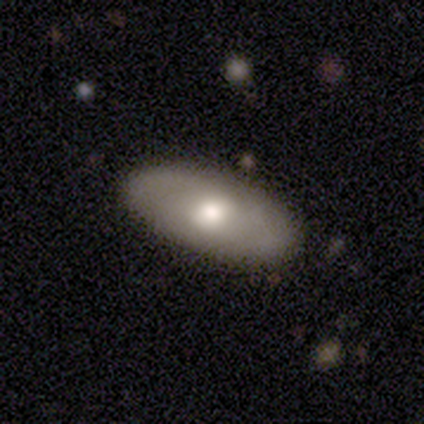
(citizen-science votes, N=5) Q: Smooth or featured?
A: featured or disk (60%); runner-up: smooth (40%)
Q: Edge-on disk?
A: no (100%)
Q: Bar?
A: no (100%)
Q: Spiral arms?
A: no (67%); runner-up: yes (33%)
Q: Bulge size?
A: large (33%); tied with: moderate (33%); small (33%)
Q: Merging?
A: none (80%); runner-up: merger (20%)